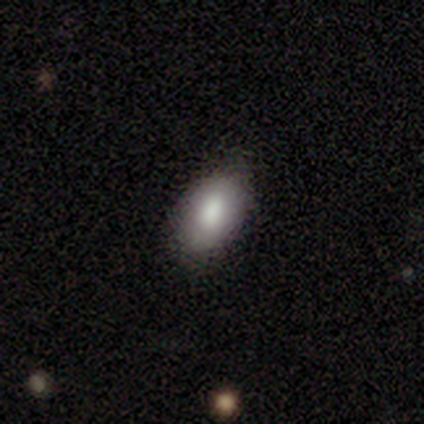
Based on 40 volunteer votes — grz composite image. It shows a smooth galaxy with no disk features (70%) that is in between round and cigar-shaped (93%). Merging: none (91%).